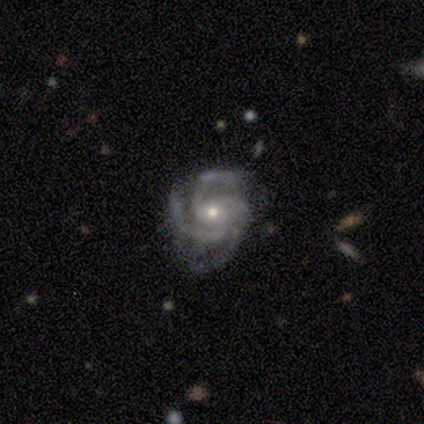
A featured or disk galaxy (100%) with no bar (75%), 3 (75%) medium (75%) spiral arms (100%) and a moderate central bulge (50%, tied with small).

Vote fractions:
- Smooth or featured? featured or disk: 100% / smooth: 0% / star or artifact: 0%
- Edge-on disk? no: 100% / yes: 0%
- Bar? no: 75% / weak: 25% / strong: 0%
- Spiral arms? yes: 100% / no: 0%
- Spiral winding? medium: 75% / tight: 25% / loose: 0%
- Spiral arm count? 3: 75% / 4: 25% / 1: 0% / 2: 0% / more than 4: 0% / can't tell: 0%
- Bulge size? moderate: 50% (tied) / small: 50% (tied) / dominant: 0% / large: 0% / none: 0%
- Merging? minor disturbance: 100% / none: 0% / major disturbance: 0% / merger: 0%